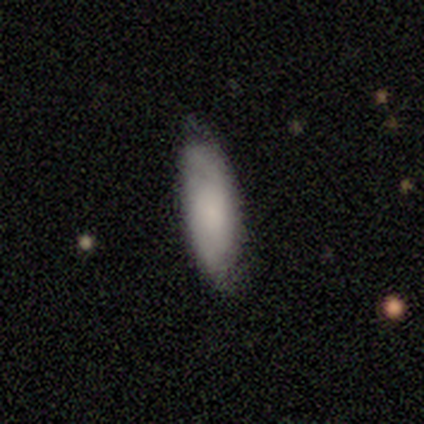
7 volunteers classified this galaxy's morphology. Smooth or featured: smooth — 86% (featured or disk — 14%)
How rounded: in between — 100%
Merging: none — 86% (minor disturbance — 14%)